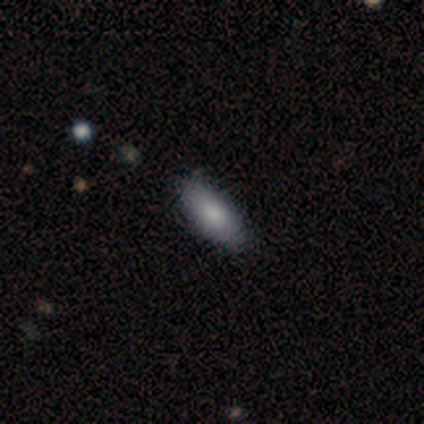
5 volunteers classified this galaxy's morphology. smooth_or_featured: smooth (p=1.00)
how_rounded: in between (p=1.00)
merging: none (p=1.00)